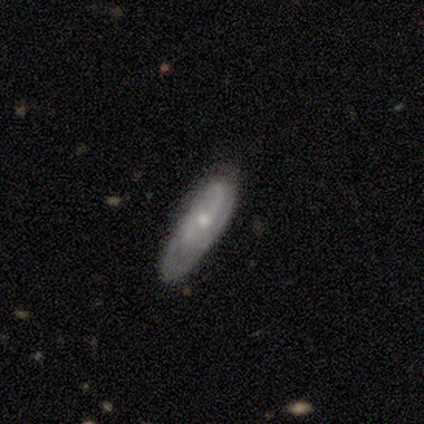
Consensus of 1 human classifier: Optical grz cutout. It shows a featured or disk galaxy (100%) with no bar (100%), 2 (100%) tight (100%) spiral arms (100%) and a small central bulge (100%). Merging: none (100%).